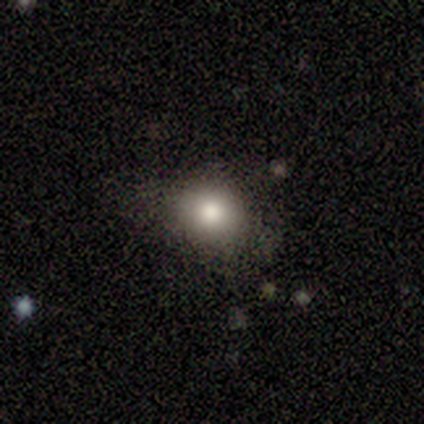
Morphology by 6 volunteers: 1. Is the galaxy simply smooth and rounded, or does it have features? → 83% smooth, 17% featured or disk, 0% star or artifact.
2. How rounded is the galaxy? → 80% round, 20% in between, 0% cigar-shaped.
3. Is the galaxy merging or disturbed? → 83% none, 17% minor disturbance, 0% major disturbance, 0% merger.